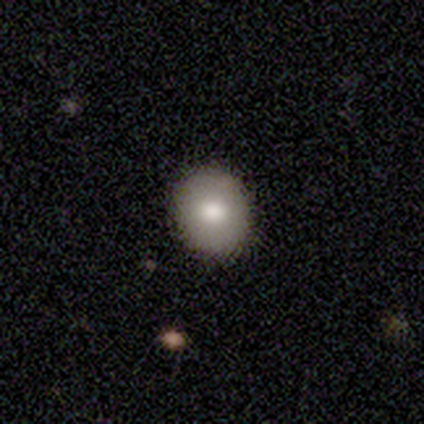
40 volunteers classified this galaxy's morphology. type=smooth (85%); roundness=round (74%); merging=none (95%).